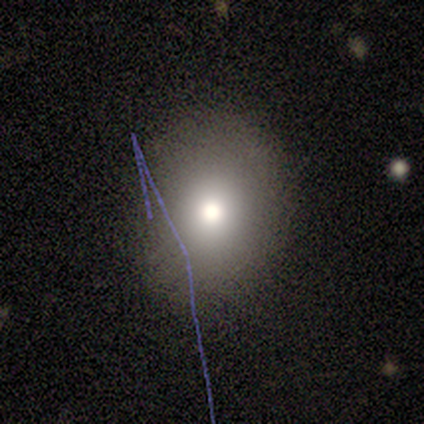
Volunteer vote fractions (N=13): Overall: smooth (92%). How rounded: round (75%). Merging: none (85%).